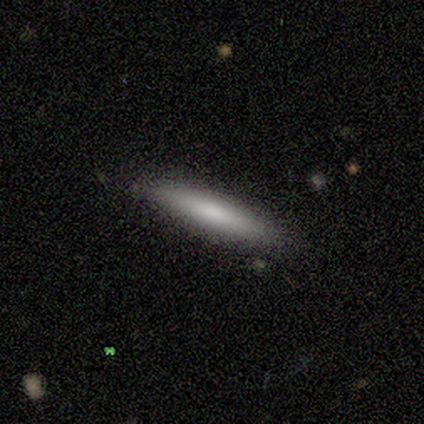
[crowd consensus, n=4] Overall: smooth (100%). How rounded: cigar-shaped (100%). Merging: none (100%).